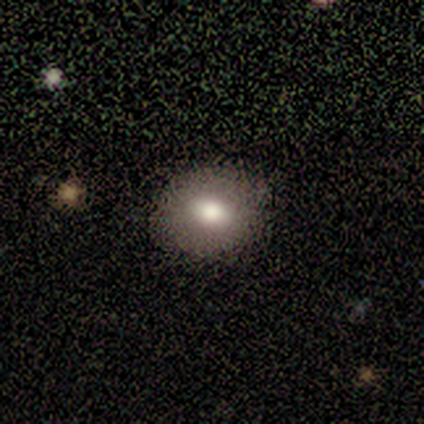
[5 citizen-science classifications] Smooth or featured? 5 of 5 (100%) said smooth. How rounded? 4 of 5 (80%) said round. Merging? 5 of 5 (100%) said none.